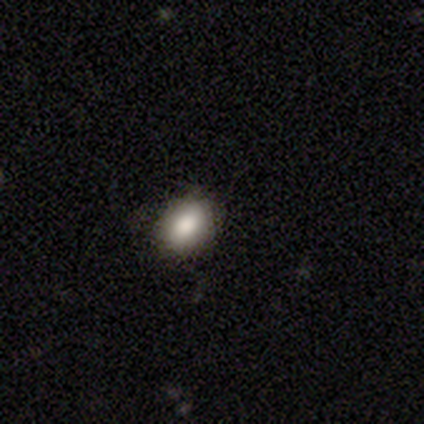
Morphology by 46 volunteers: This appears to be a smooth galaxy with no disk features (89%) that is in between round and cigar-shaped (76%). Merging: none (91%).